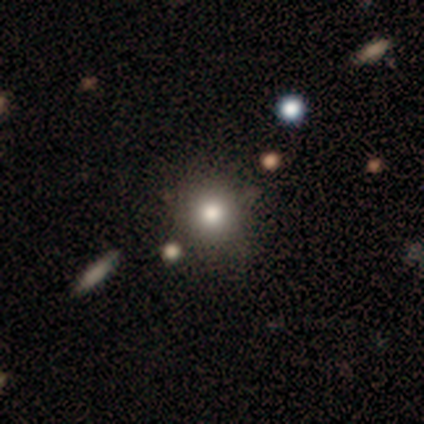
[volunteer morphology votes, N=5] A smooth galaxy with no disk features (80%) that is round (75%).

Vote fractions:
- Smooth or featured? smooth: 80% / star or artifact: 20% / featured or disk: 0%
- How rounded? round: 75% / in between: 25% / cigar-shaped: 0%
- Merging? none: 75% / minor disturbance: 25% / major disturbance: 0% / merger: 0%